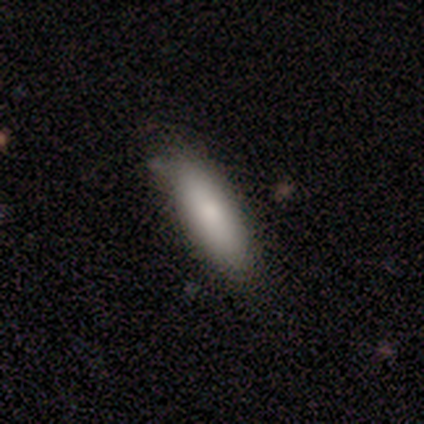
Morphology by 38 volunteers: Smooth or featured: smooth — 82% (featured or disk — 16%)
How rounded: cigar-shaped — 52% (in between — 48%)
Merging: none — 81% (minor disturbance — 19%)